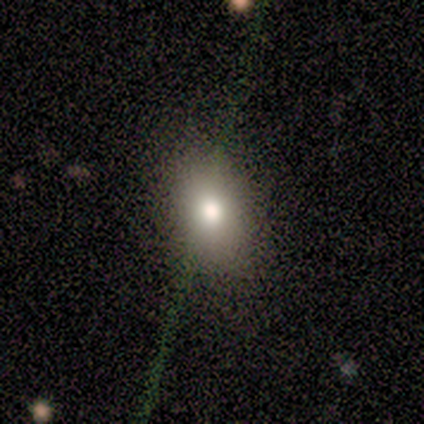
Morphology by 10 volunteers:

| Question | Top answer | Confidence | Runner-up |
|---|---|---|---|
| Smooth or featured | smooth | 70% | featured or disk (20%) |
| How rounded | in between | 86% | round (14%) |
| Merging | none | 89% | merger (11%) |